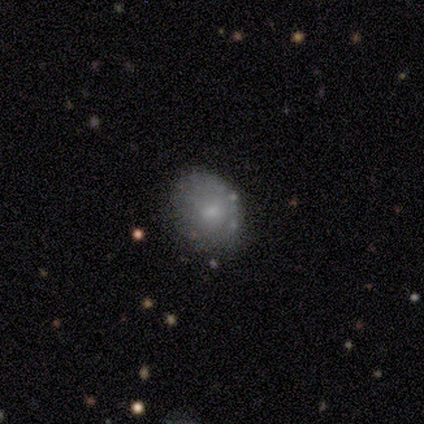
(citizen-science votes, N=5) Smooth or featured? smooth (60%)
How rounded? in between (100%)
Merging? none (80%)